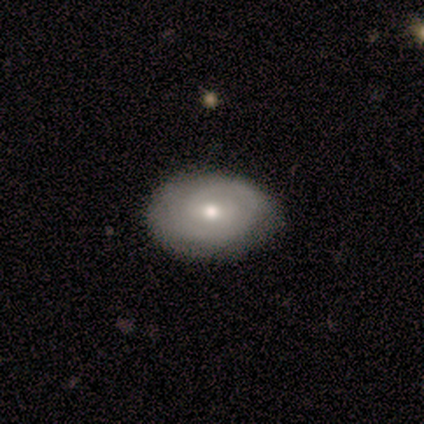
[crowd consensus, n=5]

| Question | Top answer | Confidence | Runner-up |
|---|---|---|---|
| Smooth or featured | smooth | 40% | tied: featured or disk (40%) |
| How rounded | in between | 100% | — |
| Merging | none | 75% | minor disturbance (25%) |